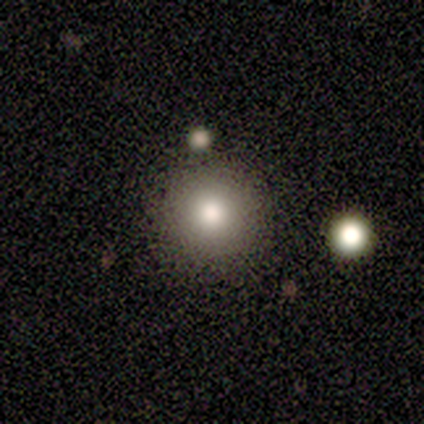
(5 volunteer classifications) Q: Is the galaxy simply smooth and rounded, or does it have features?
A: smooth — 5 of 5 (100%).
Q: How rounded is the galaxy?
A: round — 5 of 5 (100%).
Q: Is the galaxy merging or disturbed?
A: none — 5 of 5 (100%).